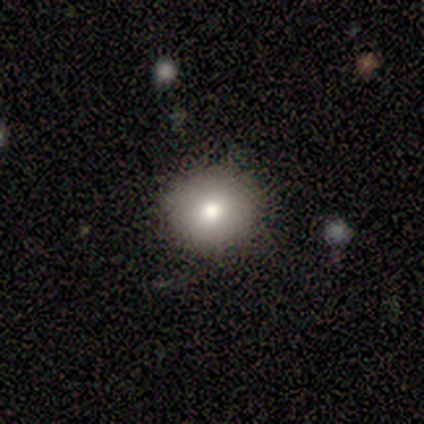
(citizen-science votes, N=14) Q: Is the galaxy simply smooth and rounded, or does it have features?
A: smooth — 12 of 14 (86%).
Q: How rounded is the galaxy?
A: round — 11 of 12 (92%).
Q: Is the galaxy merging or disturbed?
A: none — 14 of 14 (100%).